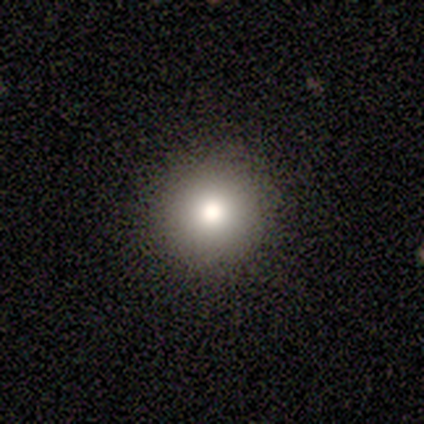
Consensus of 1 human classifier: smooth 100%, featured or disk 0%, star or artifact 0%. Down the decision tree: how rounded — round (100%); merging — none (100%).